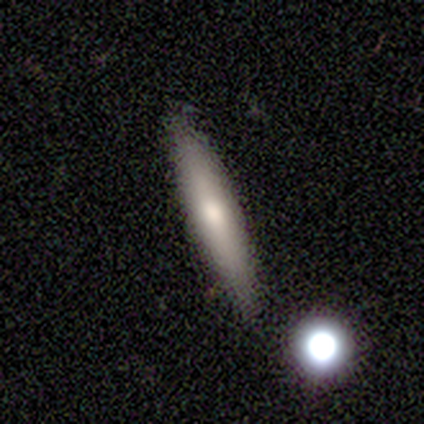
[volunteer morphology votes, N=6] Smooth or featured? smooth (67%)
How rounded? cigar-shaped (100%)
Merging? none (100%)